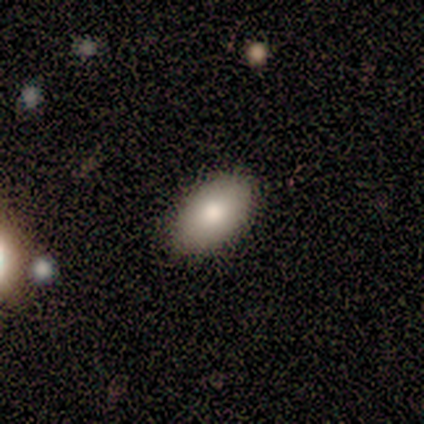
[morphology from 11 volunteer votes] This is clearly a smooth galaxy (82%). How rounded: clearly in between (100%). Merging: clearly none (82%).